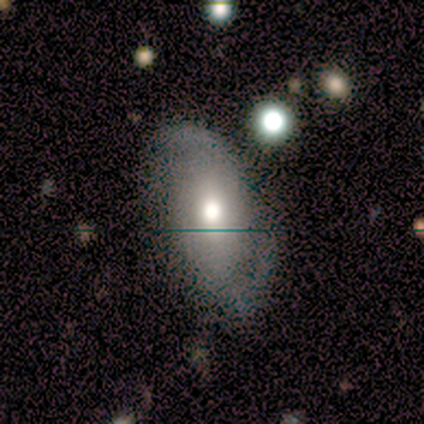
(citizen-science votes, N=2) Smooth or featured?
  - smooth: 50% * (tied)
  - featured or disk: 50% * (tied)
  - star or artifact: 0%
How rounded?
  - in between: 100% *
  - round: 0%
  - cigar-shaped: 0%
Merging?
  - none: 100% *
  - minor disturbance: 0%
  - major disturbance: 0%
  - merger: 0%